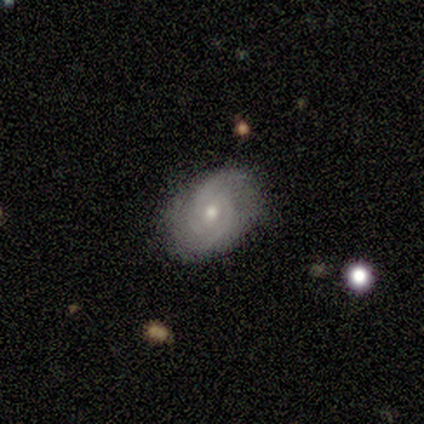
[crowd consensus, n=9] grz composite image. It shows a featured or disk galaxy (78%) with no bar (57%), 2 (100%) medium (83%) spiral arms (86%) and a small central bulge (71%). Merging: none (89%).